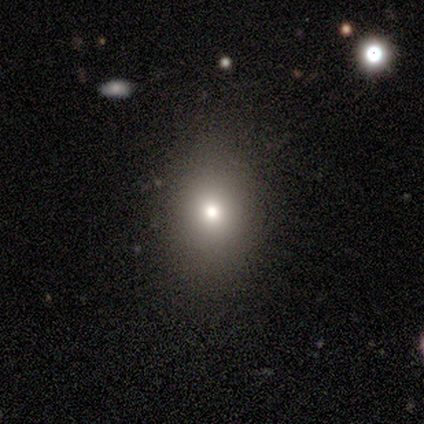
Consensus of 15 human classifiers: smooth-or-featured: smooth: 80% | star or artifact: 13% | featured or disk: 7%
  how-rounded: round: 50% (tied) | in between: 50% (tied) | cigar-shaped: 0%
  merging: none: 85% | minor disturbance: 8% | major disturbance: 8% | merger: 0%